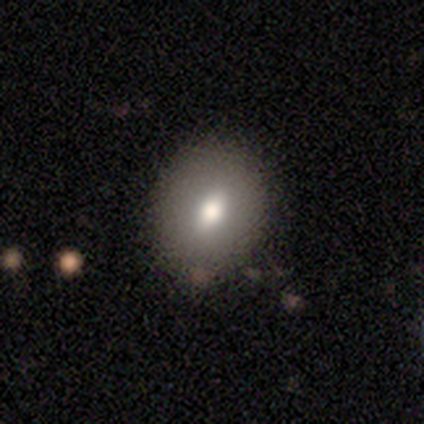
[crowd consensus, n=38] Smooth or featured? 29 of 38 (76%) said smooth. How rounded? 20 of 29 (69%) said in between. Merging? 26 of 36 (72%) said none.